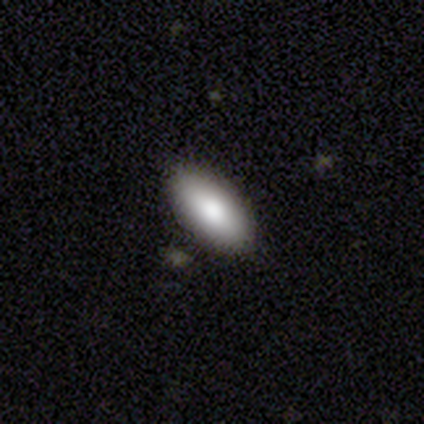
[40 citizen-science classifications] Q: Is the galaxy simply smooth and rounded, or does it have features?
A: smooth — 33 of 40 (82%).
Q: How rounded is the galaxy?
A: in between — 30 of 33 (91%).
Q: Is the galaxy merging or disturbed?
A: none — 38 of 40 (95%).